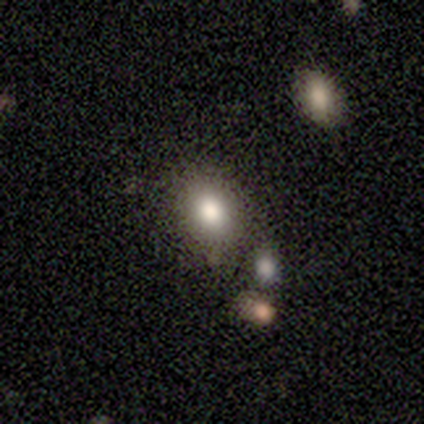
This appears to be a smooth galaxy with no disk features (92%) that is in between round and cigar-shaped (64%). Merging: none (75%).